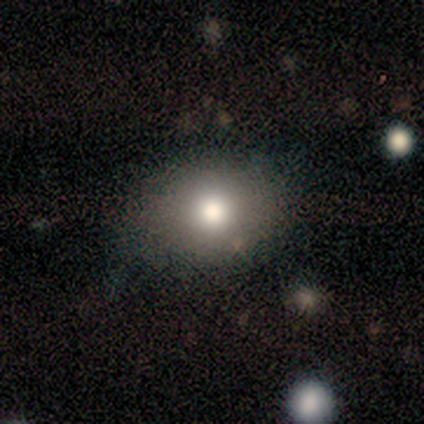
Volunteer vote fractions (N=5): Smooth or featured?
  - smooth: 60% *
  - featured or disk: 20%
  - star or artifact: 20%
How rounded?
  - round: 67% *
  - in between: 33%
  - cigar-shaped: 0%
Merging?
  - none: 50% *
  - minor disturbance: 25%
  - major disturbance: 25%
  - merger: 0%